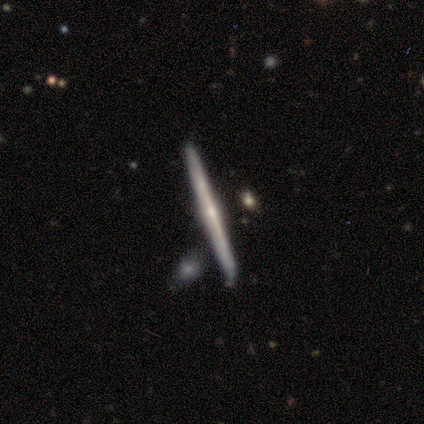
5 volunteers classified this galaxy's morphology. smooth-or-featured: featured or disk: 60% | smooth: 40% | star or artifact: 0%
  disk-edge-on: yes: 100% | no: 0%
    edge-on-bulge: rounded: 67% | none: 33% | boxy: 0%
  merging: none: 100% | minor disturbance: 0% | major disturbance: 0% | merger: 0%